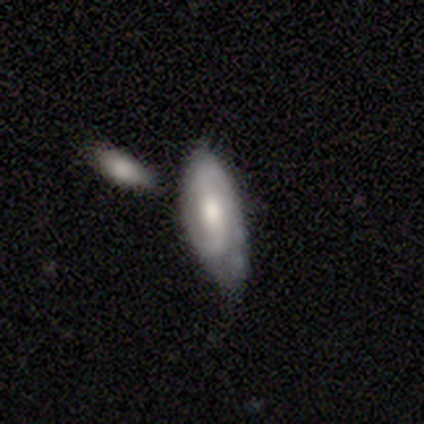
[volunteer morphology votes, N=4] featured or disk 75%, smooth 25%, star or artifact 0%. Down the decision tree: edge-on disk — no (100%); bar — weak (67%); spiral arms — yes (100%); spiral arm count — 2 (67%); spiral winding — medium (100%); bulge size — moderate (100%); merging — none (50%, tied with minor disturbance).